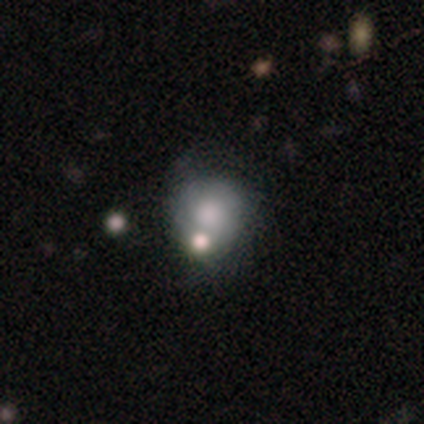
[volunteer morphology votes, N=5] Smooth or featured: smooth — 60% (featured or disk — 40%)
How rounded: round — 67% (in between — 33%)
Merging: minor disturbance — 40% (tied with major disturbance — 40%)